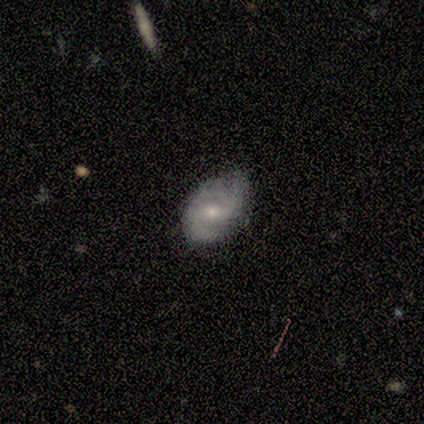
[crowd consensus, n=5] Smooth or featured?
  - featured or disk: 80% *
  - smooth: 20%
  - star or artifact: 0%
Edge-on disk?
  - no: 100% *
  - yes: 0%
Bar?
  - weak: 100% *
  - strong: 0%
  - no: 0%
Spiral arms?
  - yes: 100% *
  - no: 0%
Spiral winding?
  - medium: 75% *
  - loose: 25%
  - tight: 0%
Spiral arm count?
  - 2: 75% *
  - can't tell: 25%
  - 1: 0%
  - 3: 0%
  - 4: 0%
  - more than 4: 0%
Bulge size?
  - moderate: 100% *
  - dominant: 0%
  - large: 0%
  - small: 0%
  - none: 0%
Merging?
  - none: 80% *
  - minor disturbance: 20%
  - major disturbance: 0%
  - merger: 0%